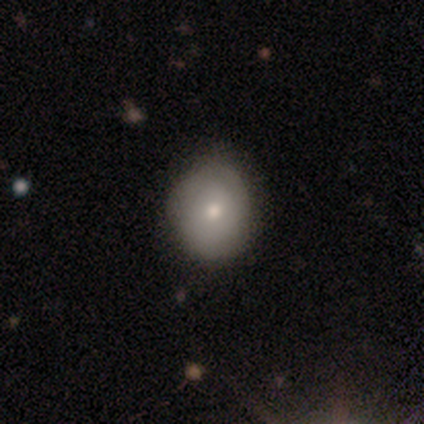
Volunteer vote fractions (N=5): smooth-or-featured: featured or disk: 60% | smooth: 40% | star or artifact: 0%
  disk-edge-on: no: 100% | yes: 0%
    bar: no: 100% | strong: 0% | weak: 0%
    has-spiral-arms: no: 100% | yes: 0%
    bulge-size: moderate: 100% | dominant: 0% | large: 0% | small: 0% | none: 0%
  merging: none: 100% | minor disturbance: 0% | major disturbance: 0% | merger: 0%